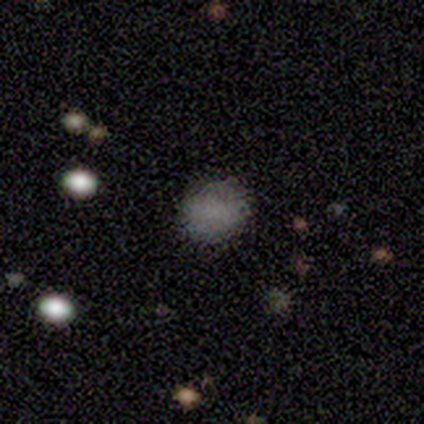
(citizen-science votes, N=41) Smooth or featured?
  - smooth: 78% *
  - star or artifact: 17%
  - featured or disk: 5%
How rounded?
  - round: 75% *
  - in between: 25%
  - cigar-shaped: 0%
Merging?
  - none: 97% *
  - minor disturbance: 3%
  - major disturbance: 0%
  - merger: 0%